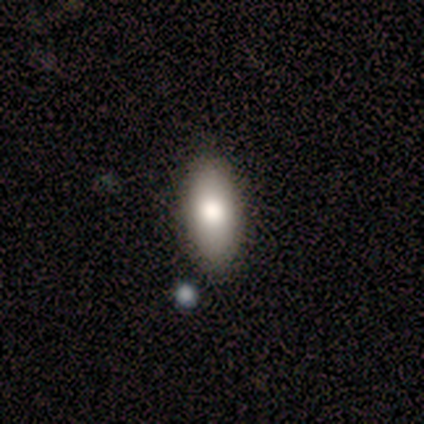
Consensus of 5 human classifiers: smooth_or_featured: smooth (p=0.80) [alt: featured or disk p=0.20]
how_rounded: in between (p=0.75) [alt: cigar-shaped p=0.25]
merging: none (p=0.80) [alt: minor disturbance p=0.20]